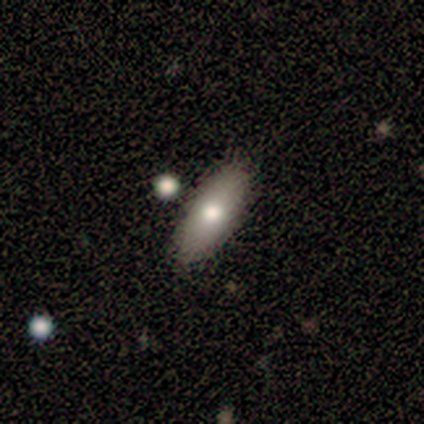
Volunteers were most divided on "how rounded": in between: 60%, cigar-shaped: 40%, round: 0%. More confident: smooth or featured — smooth (100%); merging — none (80%).